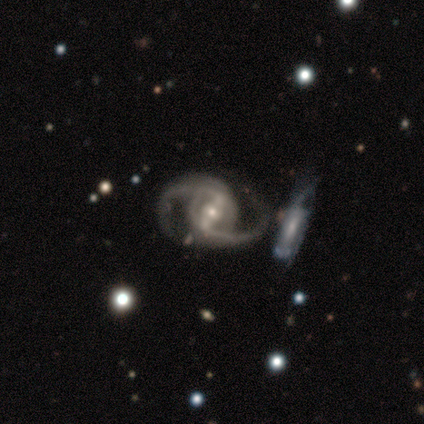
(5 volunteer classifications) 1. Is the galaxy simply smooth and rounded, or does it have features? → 100% featured or disk, 0% smooth, 0% star or artifact.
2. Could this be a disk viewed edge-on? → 100% no, 0% yes.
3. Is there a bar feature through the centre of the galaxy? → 40% strong (tied), 40% weak (tied), 20% no.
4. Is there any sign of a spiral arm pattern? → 100% yes, 0% no.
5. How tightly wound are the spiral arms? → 60% medium, 40% loose, 0% tight.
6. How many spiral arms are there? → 100% 2, 0% 1, 0% 3, 0% 4, 0% more than 4, 0% can't tell.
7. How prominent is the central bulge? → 60% small, 20% large, 20% moderate, 0% dominant, 0% none.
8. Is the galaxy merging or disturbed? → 40% none (tied), 40% major disturbance (tied), 20% merger, 0% minor disturbance.